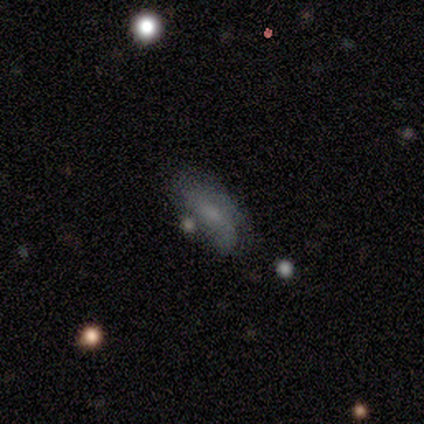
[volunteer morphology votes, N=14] Smooth or featured? 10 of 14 (71%) said smooth. How rounded? 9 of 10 (90%) said in between. Merging? 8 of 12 (67%) said none.